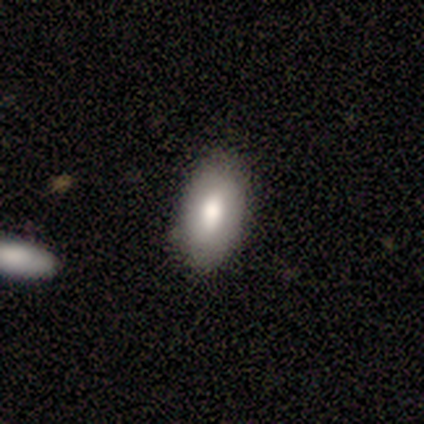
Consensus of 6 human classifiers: Q: Smooth or featured?
A: featured or disk (50%); runner-up: smooth (33%)
Q: Edge-on disk?
A: no (67%); runner-up: yes (33%)
Q: Bar?
A: no (100%)
Q: Spiral arms?
A: no (100%)
Q: Bulge size?
A: large (50%); tied with: moderate (50%)
Q: Merging?
A: none (100%)